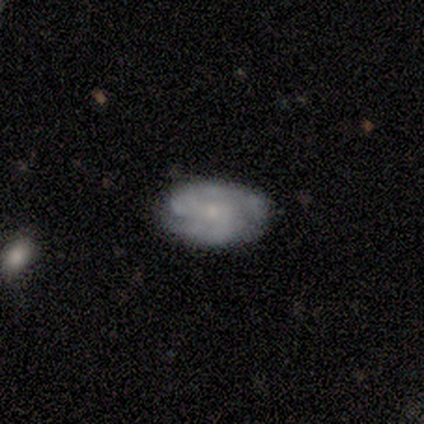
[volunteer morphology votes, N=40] This is likely a featured or disk galaxy (68%). It is clearly not viewed edge-on (96%). Bar: likely no (62%). Spiral arm pattern: clearly yes (81%). Spiral arm count: clearly 2 (81%). Spiral winding: marginally tight (38%, tied with medium). Central bulge: likely small (69%). Merging: likely none (74%).